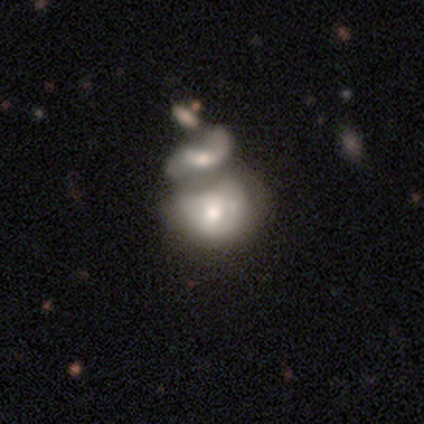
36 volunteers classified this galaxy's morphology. Smooth or featured? 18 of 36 (50%) said featured or disk. Edge-on disk? 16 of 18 (89%) said no. Bar? 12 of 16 (75%) said no. Spiral arms? 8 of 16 (50%, tied with no) said yes. Spiral winding? 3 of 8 (38%, tied with loose) said tight. Spiral arm count? 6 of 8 (75%) said can't tell. Bulge size? 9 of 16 (56%) said moderate. Merging? 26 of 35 (74%) said merger.